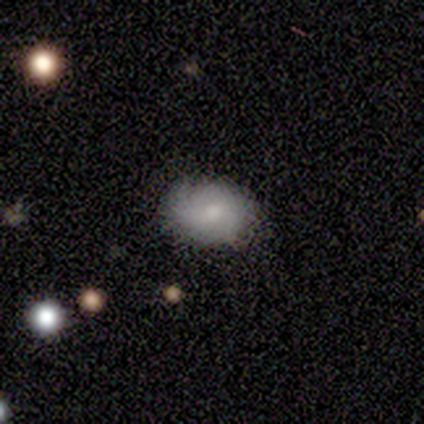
Smooth or featured? smooth (57%)
How rounded? round (50%, tied with in between)
Merging? none (100%)